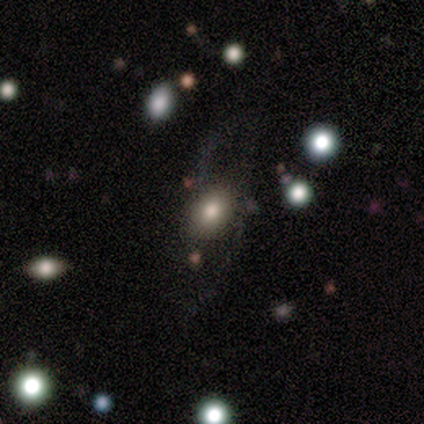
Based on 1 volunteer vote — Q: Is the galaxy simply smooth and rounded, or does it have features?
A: featured or disk — 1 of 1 (100%).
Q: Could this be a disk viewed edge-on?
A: no — 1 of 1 (100%).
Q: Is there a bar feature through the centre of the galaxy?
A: no — 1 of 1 (100%).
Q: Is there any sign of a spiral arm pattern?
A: yes — 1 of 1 (100%).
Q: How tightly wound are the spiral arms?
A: medium — 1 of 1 (100%).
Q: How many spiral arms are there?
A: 2 — 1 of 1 (100%).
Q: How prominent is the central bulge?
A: large — 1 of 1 (100%).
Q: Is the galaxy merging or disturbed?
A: none — 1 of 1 (100%).